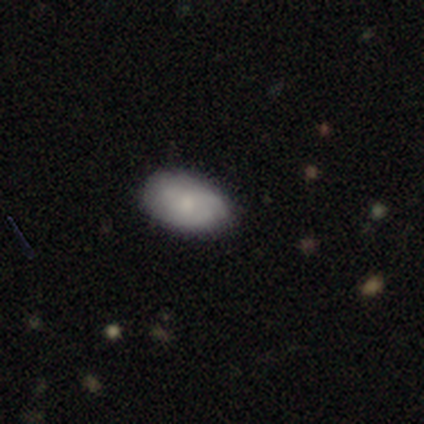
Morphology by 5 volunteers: Q: Smooth or featured?
A: smooth (100%)
Q: How rounded?
A: in between (100%)
Q: Merging?
A: none (60%); runner-up: minor disturbance (40%)